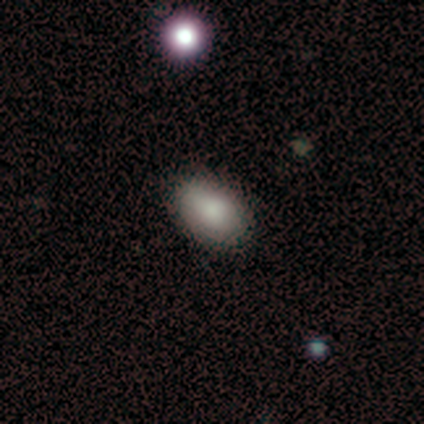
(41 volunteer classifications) A smooth galaxy with no disk features (76%) that is in between round and cigar-shaped (90%).

Vote fractions:
- Smooth or featured? smooth: 76% / featured or disk: 17% / star or artifact: 7%
- How rounded? in between: 90% / round: 10% / cigar-shaped: 0%
- Merging? none: 95% / minor disturbance: 5% / major disturbance: 0% / merger: 0%